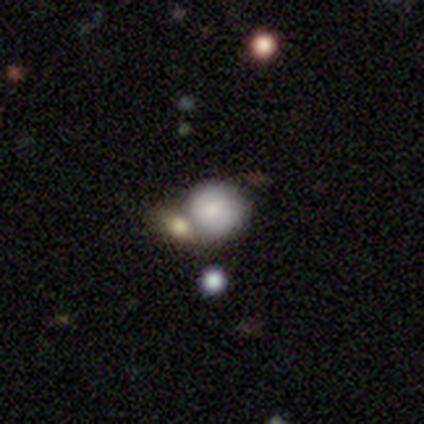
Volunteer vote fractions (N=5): A smooth galaxy with no disk features (60%) that is round (67%).

Vote fractions:
- Smooth or featured? smooth: 60% / featured or disk: 20% / star or artifact: 20%
- How rounded? round: 67% / cigar-shaped: 33% / in between: 0%
- Merging? none: 50% / major disturbance: 25% / merger: 25% / minor disturbance: 0%